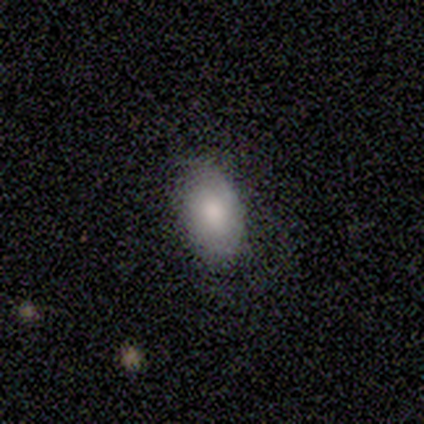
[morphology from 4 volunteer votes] A featured or disk galaxy (75%) with no bar (67%), 2 (50%, tied with can't tell) tight (50%, tied with medium) spiral arms (67%) and a moderate central bulge (67%).

Vote fractions:
- Smooth or featured? featured or disk: 75% / smooth: 25% / star or artifact: 0%
- Edge-on disk? no: 100% / yes: 0%
- Bar? no: 67% / strong: 33% / weak: 0%
- Spiral arms? yes: 67% / no: 33%
- Spiral winding? tight: 50% (tied) / medium: 50% (tied) / loose: 0%
- Spiral arm count? 2: 50% (tied) / can't tell: 50% (tied) / 1: 0% / 3: 0% / 4: 0% / more than 4: 0%
- Bulge size? moderate: 67% / large: 33% / dominant: 0% / small: 0% / none: 0%
- Merging? none: 50% / minor disturbance: 25% / major disturbance: 25% / merger: 0%